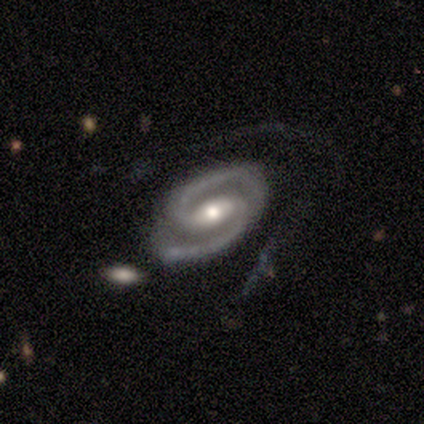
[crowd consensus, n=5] Volunteers were most divided on "merging": minor disturbance: 60%, none: 40%, major disturbance: 0%, merger: 0%. More confident: smooth or featured — featured or disk (100%); edge-on disk — no (100%); spiral arms — yes (100%); spiral arm count — 2 (100%); bulge size — moderate (100%); bar — strong (80%); spiral winding — medium (60%).